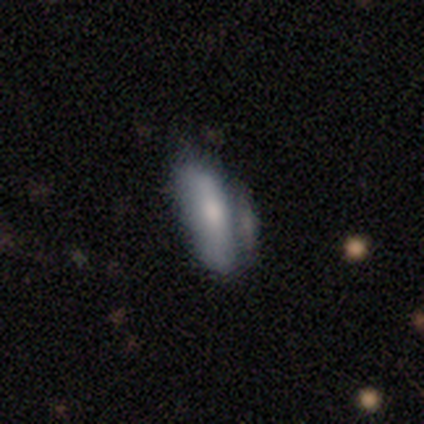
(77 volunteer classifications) Morphology: type=smooth (69%); roundness=in between (74%); merging=merger (25%).